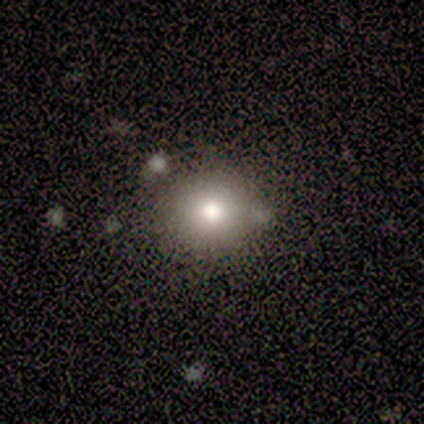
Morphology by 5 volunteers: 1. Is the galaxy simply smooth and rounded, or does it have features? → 40% smooth (tied), 40% star or artifact (tied), 20% featured or disk.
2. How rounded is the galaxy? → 100% round, 0% in between, 0% cigar-shaped.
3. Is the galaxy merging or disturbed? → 100% none, 0% minor disturbance, 0% major disturbance, 0% merger.